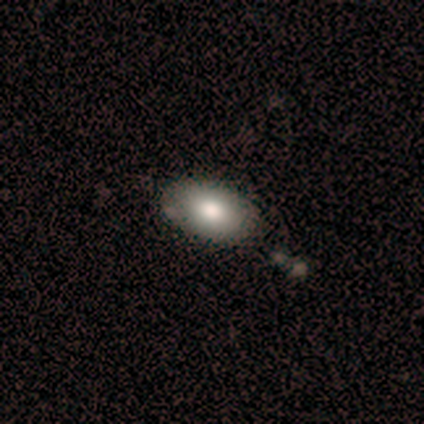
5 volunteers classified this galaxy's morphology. This appears to be a smooth galaxy with no disk features (80%) that is in between round and cigar-shaped (100%). Merging: none (80%).